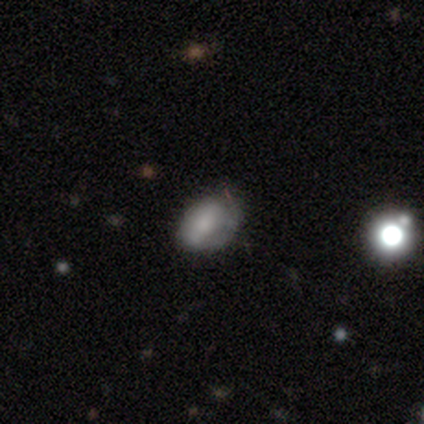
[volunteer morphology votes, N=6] smooth 67%, featured or disk 17%, star or artifact 17%. Down the decision tree: how rounded — in between (100%); merging — none (80%).